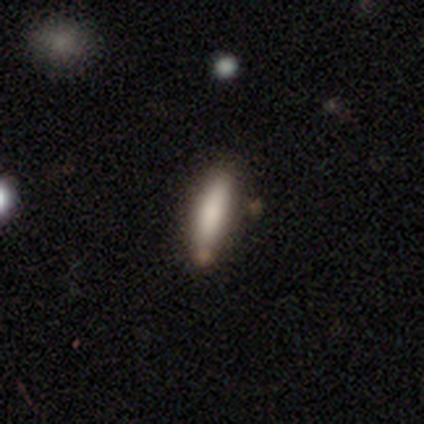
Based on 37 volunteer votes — This appears to be a smooth galaxy with no disk features (78%) that is cigar-shaped (83%). Merging: none (72%).